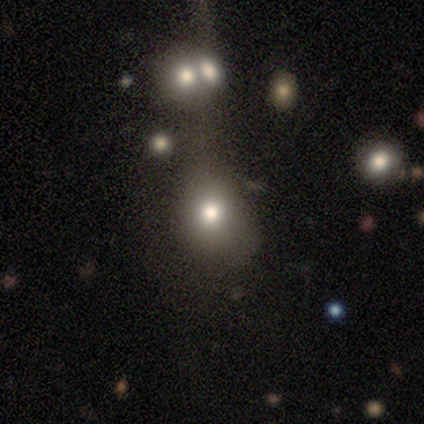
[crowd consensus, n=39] A smooth galaxy with no disk features (67%) that is round (58%). Merging: none (42%).